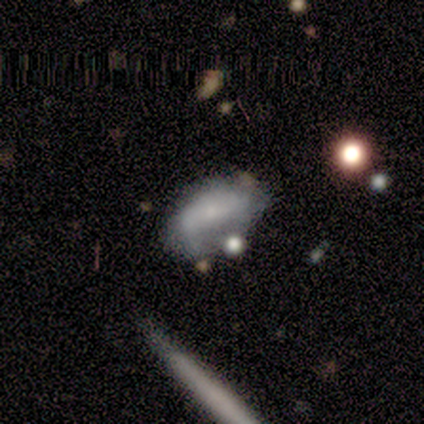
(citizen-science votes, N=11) smooth_or_featured: smooth (p=0.45) [alt: featured or disk p=0.36]
how_rounded: in between (p=1.00)
merging: none (p=0.67) [alt: minor disturbance p=0.11]